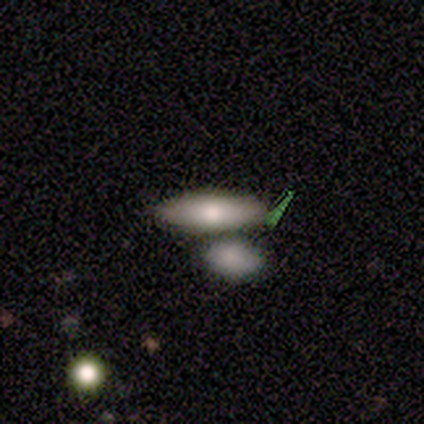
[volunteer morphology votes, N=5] smooth 100%, featured or disk 0%, star or artifact 0%. Down the decision tree: how rounded — in between (60%); merging — none (80%).